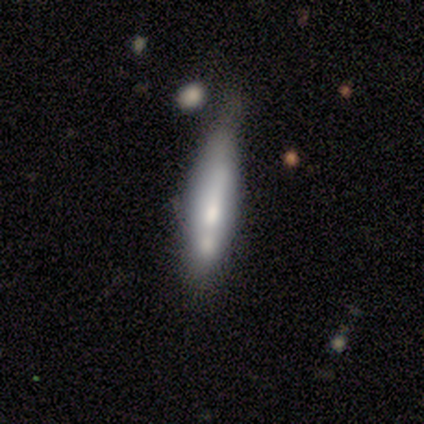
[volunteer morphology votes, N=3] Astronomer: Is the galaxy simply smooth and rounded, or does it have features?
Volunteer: smooth — 100%.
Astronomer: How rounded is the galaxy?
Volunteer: cigar-shaped — 67%.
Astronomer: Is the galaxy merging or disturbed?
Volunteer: minor disturbance — 67%.